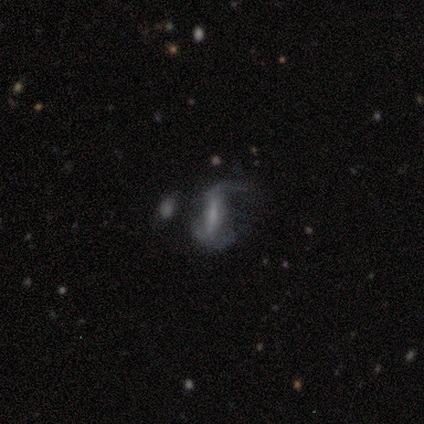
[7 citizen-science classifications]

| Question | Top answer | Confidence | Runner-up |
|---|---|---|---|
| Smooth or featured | featured or disk | 86% | star or artifact (14%) |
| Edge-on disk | no | 100% | — |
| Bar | strong | 83% | no (17%) |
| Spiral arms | yes | 83% | no (17%) |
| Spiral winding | loose | 60% | medium (40%) |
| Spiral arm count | can't tell | 80% | 1 (20%) |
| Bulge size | small | 67% | large (17%) |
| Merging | minor disturbance | 50% | tied: major disturbance (50%) |